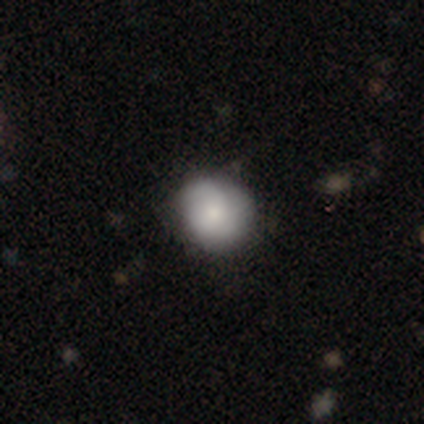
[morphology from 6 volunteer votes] smooth-or-featured: smooth: 67% | featured or disk: 33% | star or artifact: 0%
  how-rounded: round: 100% | in between: 0% | cigar-shaped: 0%
  merging: minor disturbance: 83% | none: 17% | major disturbance: 0% | merger: 0%